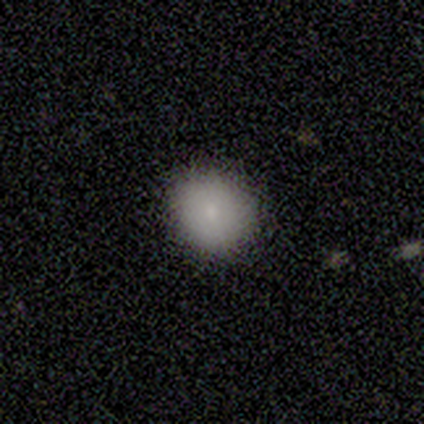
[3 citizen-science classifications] Smooth or featured? smooth (67%)
How rounded? round (100%)
Merging? none (100%)